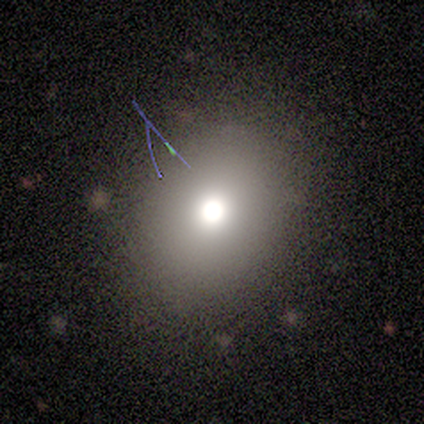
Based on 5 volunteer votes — smooth-or-featured: smooth: 80% | star or artifact: 20% | featured or disk: 0%
  how-rounded: round: 50% (tied) | in between: 50% (tied) | cigar-shaped: 0%
  merging: none: 100% | minor disturbance: 0% | major disturbance: 0% | merger: 0%